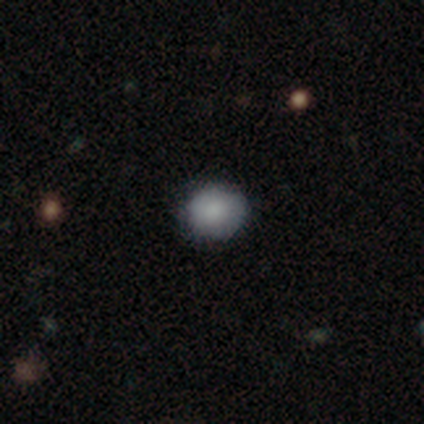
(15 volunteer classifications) smooth-or-featured: smooth: 87% | featured or disk: 7% | star or artifact: 7%
  how-rounded: round: 92% | in between: 8% | cigar-shaped: 0%
  merging: none: 79% | minor disturbance: 21% | major disturbance: 0% | merger: 0%